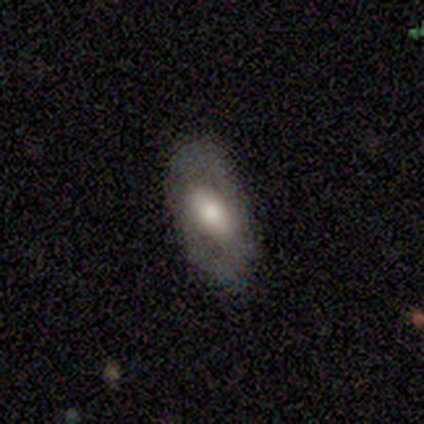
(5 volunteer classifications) smooth-or-featured: smooth: 80% | featured or disk: 20% | star or artifact: 0%
  how-rounded: in between: 100% | round: 0% | cigar-shaped: 0%
  merging: none: 80% | minor disturbance: 20% | major disturbance: 0% | merger: 0%